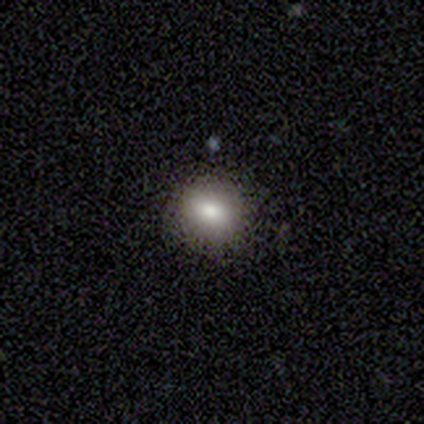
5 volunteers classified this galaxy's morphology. Smooth or featured?
  - smooth: 60% *
  - featured or disk: 20%
  - star or artifact: 20%
How rounded?
  - round: 67% *
  - in between: 33%
  - cigar-shaped: 0%
Merging?
  - none: 75% *
  - major disturbance: 25%
  - minor disturbance: 0%
  - merger: 0%